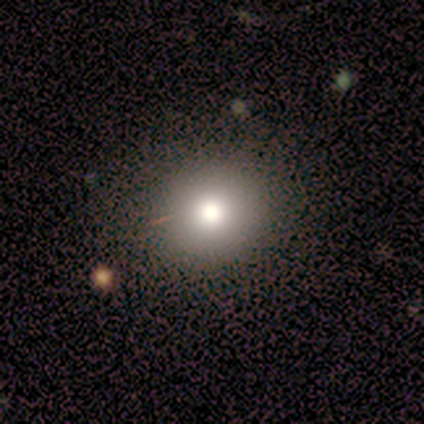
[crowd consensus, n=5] Smooth or featured? smooth (100%)
How rounded? round (100%)
Merging? none (100%)